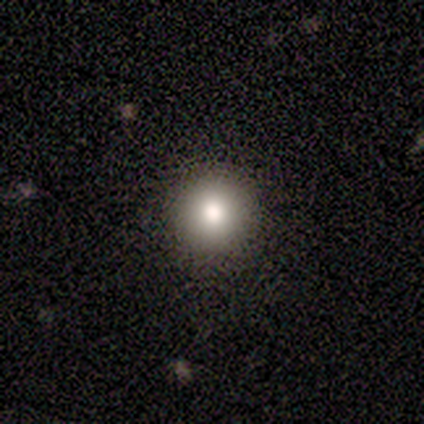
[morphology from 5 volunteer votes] This is clearly a smooth galaxy (80%). How rounded: clearly round (100%). Merging: clearly none (100%).